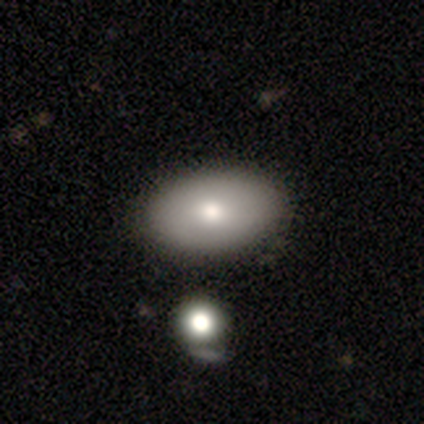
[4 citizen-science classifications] Smooth or featured? smooth (75%)
How rounded? in between (100%)
Merging? none (100%)